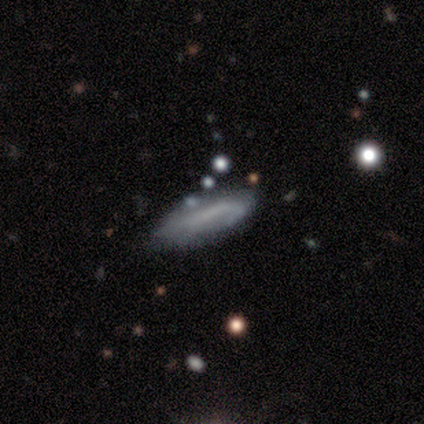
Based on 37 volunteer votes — featured or disk 43%, smooth 38%, star or artifact 19%. Down the decision tree: edge-on disk — no (69%); bar — no (64%); spiral arms — yes (64%); spiral arm count — can't tell (43%); spiral winding — medium (43%, tied with loose); bulge size — none (82%); merging — none (53%).